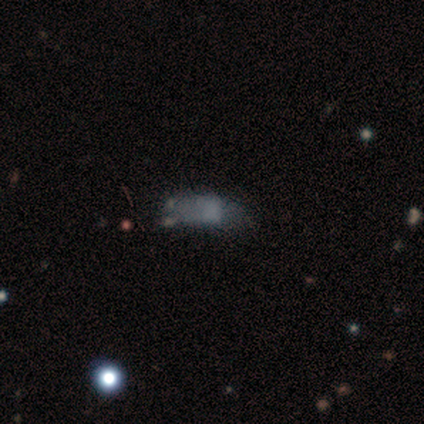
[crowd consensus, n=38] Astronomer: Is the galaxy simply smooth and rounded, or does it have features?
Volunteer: smooth — 61%.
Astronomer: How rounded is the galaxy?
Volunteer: in between — 74%.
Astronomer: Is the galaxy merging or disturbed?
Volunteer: major disturbance — 34% (runner-up: none, 28%).